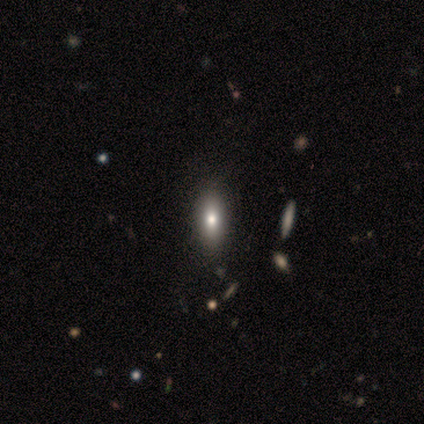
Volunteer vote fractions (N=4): A smooth galaxy with no disk features (50%, tied with featured or disk) that is in between round and cigar-shaped (50%, tied with cigar-shaped).

Vote fractions:
- Smooth or featured? smooth: 50% (tied) / featured or disk: 50% (tied) / star or artifact: 0%
- How rounded? in between: 50% (tied) / cigar-shaped: 50% (tied) / round: 0%
- Merging? none: 75% / minor disturbance: 25% / major disturbance: 0% / merger: 0%